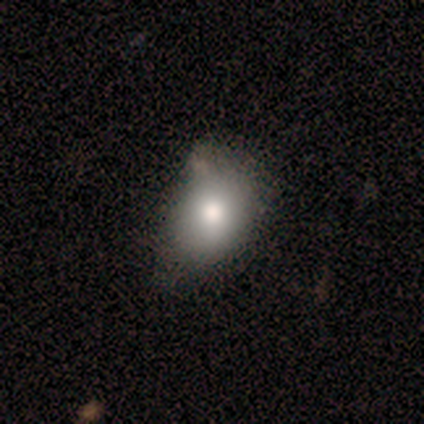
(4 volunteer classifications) Smooth or featured?
  - smooth: 75% *
  - featured or disk: 25%
  - star or artifact: 0%
How rounded?
  - in between: 100% *
  - round: 0%
  - cigar-shaped: 0%
Merging?
  - none: 75% *
  - minor disturbance: 25%
  - major disturbance: 0%
  - merger: 0%